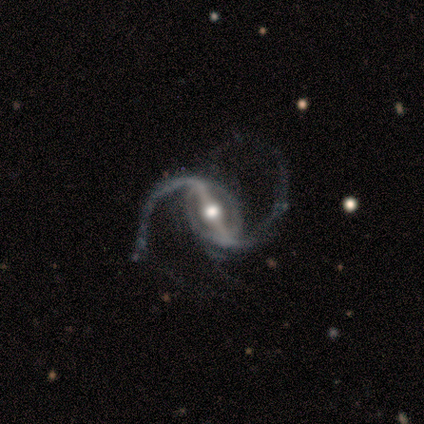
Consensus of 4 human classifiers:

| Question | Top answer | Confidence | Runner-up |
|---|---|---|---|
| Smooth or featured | featured or disk | 100% | — |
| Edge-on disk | no | 100% | — |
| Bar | strong | 75% | no (25%) |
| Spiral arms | yes | 100% | — |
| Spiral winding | medium | 50% | tied: loose (50%) |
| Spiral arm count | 2 | 100% | — |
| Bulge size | large | 50% | tied: moderate (50%) |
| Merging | minor disturbance | 75% | none (25%) |